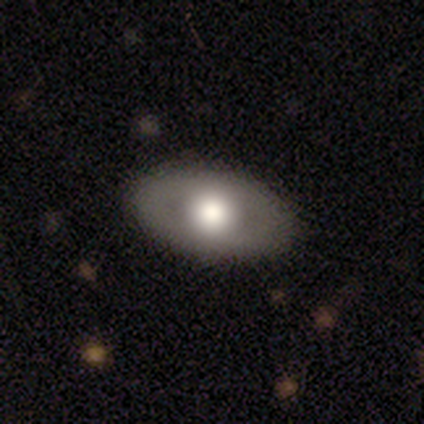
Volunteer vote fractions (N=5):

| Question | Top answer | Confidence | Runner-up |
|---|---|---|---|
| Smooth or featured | smooth | 60% | featured or disk (40%) |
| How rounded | in between | 100% | — |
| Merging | none | 80% | major disturbance (20%) |